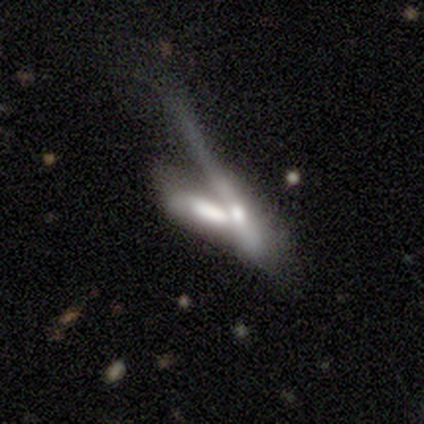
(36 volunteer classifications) This is possibly a smooth galaxy (53%). How rounded: likely cigar-shaped (68%). Merging: likely merger (79%).